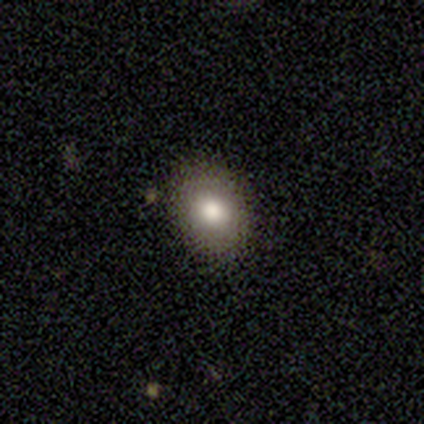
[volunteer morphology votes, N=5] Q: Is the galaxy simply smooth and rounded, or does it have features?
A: smooth — 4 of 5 (80%).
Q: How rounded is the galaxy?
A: in between — 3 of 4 (75%).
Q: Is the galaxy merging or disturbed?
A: none — 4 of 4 (100%).